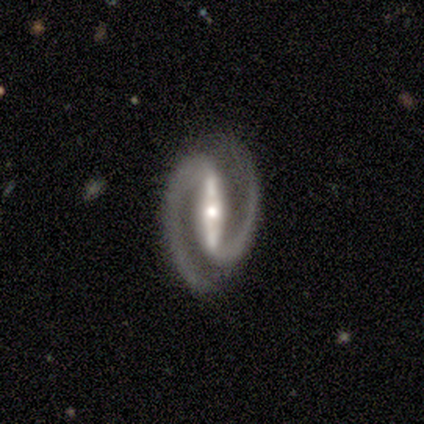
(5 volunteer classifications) Volunteers were most divided on "spiral winding": medium: 60%, tight: 40%, loose: 0%. More confident: smooth or featured — featured or disk (100%); edge-on disk — no (100%); spiral arms — yes (100%); spiral arm count — 2 (100%); merging — none (100%); bar — strong (80%); bulge size — moderate (60%).